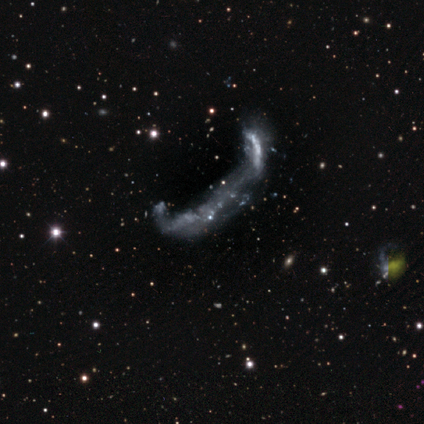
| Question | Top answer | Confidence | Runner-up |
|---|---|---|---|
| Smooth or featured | featured or disk | 50% | smooth (25%) |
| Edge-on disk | yes | 50% | tied: no (50%) |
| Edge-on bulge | boxy | 100% | — |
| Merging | merger | 67% | major disturbance (33%) |